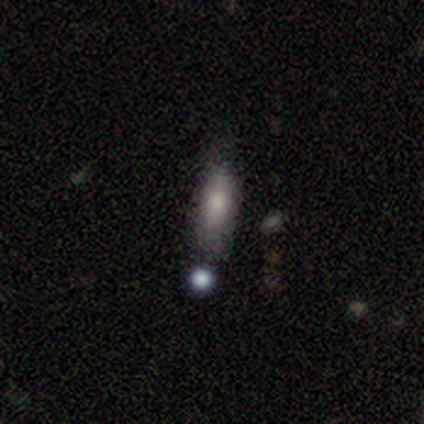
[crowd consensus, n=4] Smooth or featured? 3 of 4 (75%) said smooth. How rounded? 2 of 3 (67%) said cigar-shaped. Merging? 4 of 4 (100%) said none.